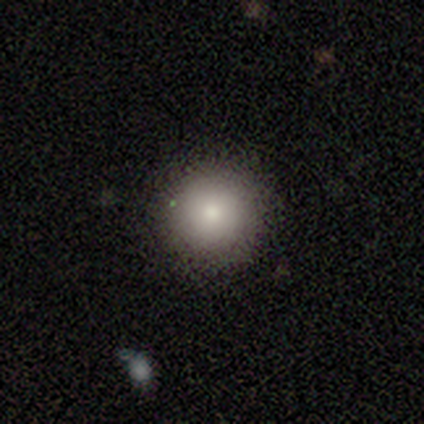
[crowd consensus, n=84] Smooth or featured? 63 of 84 (75%) said smooth. How rounded? 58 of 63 (92%) said round. Merging? 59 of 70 (84%) said none.